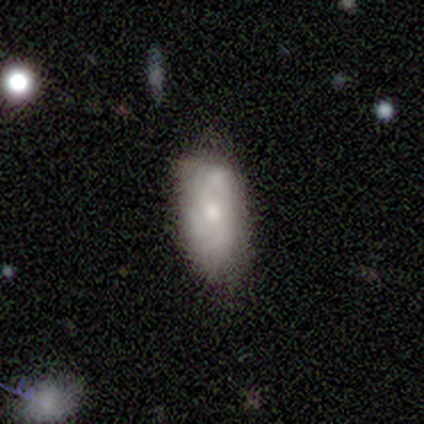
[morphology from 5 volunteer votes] smooth_or_featured: smooth (p=0.60) [alt: featured or disk p=0.20]
how_rounded: in between (p=1.00)
merging: none (p=0.50) [tied with: minor disturbance p=0.50]